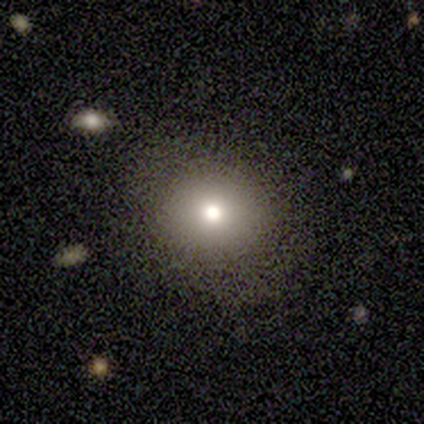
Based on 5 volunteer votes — Overall: smooth (40%, tied with featured or disk). How rounded: in between (100%). Merging: none (100%).